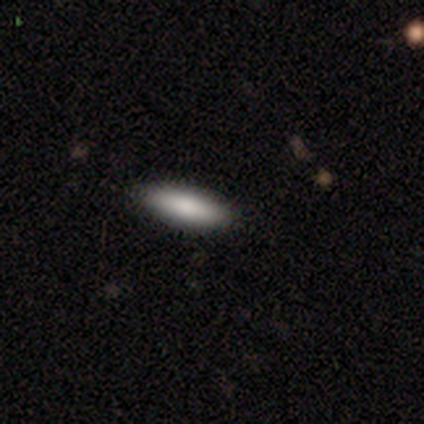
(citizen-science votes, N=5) This is clearly a smooth galaxy (100%). How rounded: likely cigar-shaped (60%). Merging: clearly none (100%).